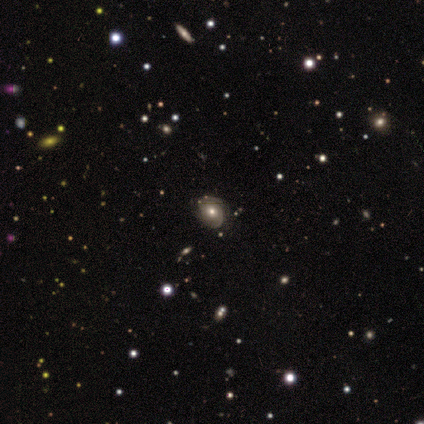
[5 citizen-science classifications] A featured or disk galaxy (60%) with no bar (100%), 2 (50%, tied with 3) tight (100%) spiral arms (67%) and a large central bulge (67%).

Vote fractions:
- Smooth or featured? featured or disk: 60% / smooth: 20% / star or artifact: 20%
- Edge-on disk? no: 100% / yes: 0%
- Bar? no: 100% / strong: 0% / weak: 0%
- Spiral arms? yes: 67% / no: 33%
- Spiral winding? tight: 100% / medium: 0% / loose: 0%
- Spiral arm count? 2: 50% (tied) / 3: 50% (tied) / 1: 0% / 4: 0% / more than 4: 0% / can't tell: 0%
- Bulge size? large: 67% / small: 33% / dominant: 0% / moderate: 0% / none: 0%
- Merging? none: 75% / minor disturbance: 25% / major disturbance: 0% / merger: 0%